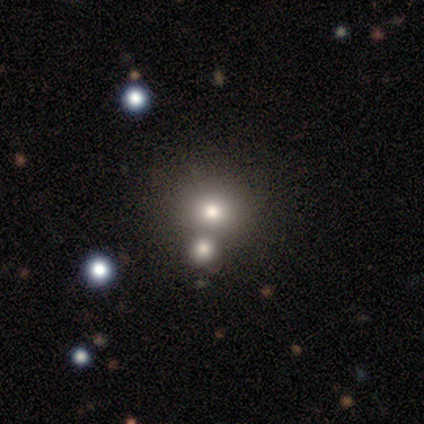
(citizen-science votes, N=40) Smooth or featured?
  - smooth: 60% *
  - featured or disk: 25%
  - star or artifact: 15%
How rounded?
  - round: 92% *
  - in between: 8%
  - cigar-shaped: 0%
Merging?
  - none: 44% * (tied)
  - merger: 44% * (tied)
  - minor disturbance: 9%
  - major disturbance: 3%